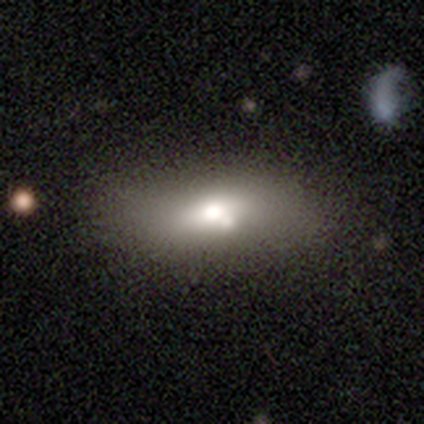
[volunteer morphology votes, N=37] smooth_or_featured: featured or disk (p=0.49) [alt: smooth p=0.43]
disk_edge_on: no (p=0.83) [alt: yes p=0.17]
bar: no (p=0.87) [alt: weak p=0.13]
has_spiral_arms: no (p=1.00)
bulge_size: moderate (p=0.53) [alt: large p=0.20]
merging: none (p=0.62) [alt: minor disturbance p=0.21]